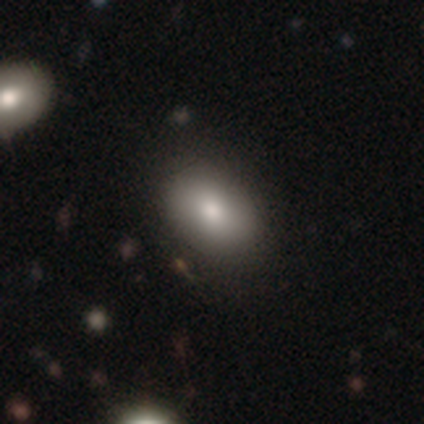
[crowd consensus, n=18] Overall: smooth (67%). How rounded: in between (92%). Merging: none (81%).